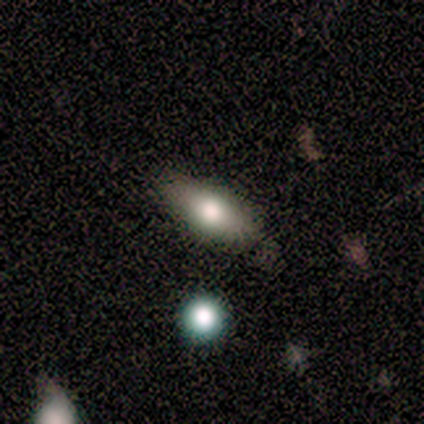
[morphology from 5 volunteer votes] type=smooth (60%); roundness=in between (67%); merging=none (75%).